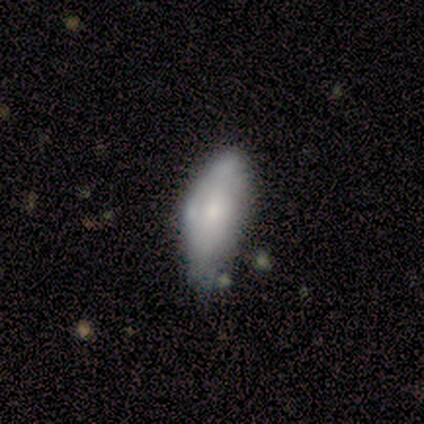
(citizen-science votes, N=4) A smooth galaxy with no disk features (100%) that is in between round and cigar-shaped (100%). Merging: minor disturbance (50%).